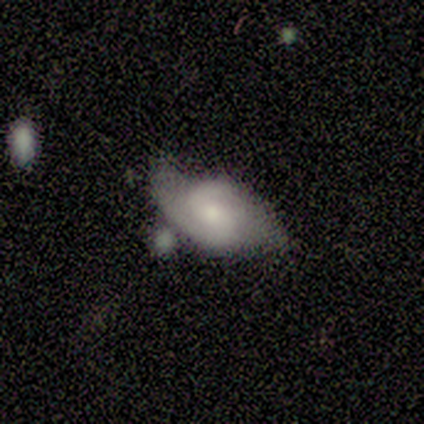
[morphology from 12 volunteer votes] Smooth or featured? 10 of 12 (83%) said featured or disk. Edge-on disk? 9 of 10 (90%) said no. Bar? 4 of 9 (44%, tied with no) said weak. Spiral arms? 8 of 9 (89%) said yes. Spiral winding? 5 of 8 (62%) said medium. Spiral arm count? 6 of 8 (75%) said 2. Bulge size? 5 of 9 (56%) said moderate. Merging? 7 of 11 (64%) said none.